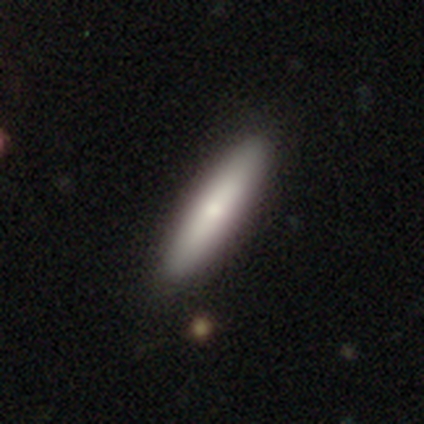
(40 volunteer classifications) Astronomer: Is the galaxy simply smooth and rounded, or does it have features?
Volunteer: smooth — 65%.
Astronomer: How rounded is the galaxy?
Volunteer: cigar-shaped — 77%.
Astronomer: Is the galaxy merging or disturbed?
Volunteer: none — 65%.